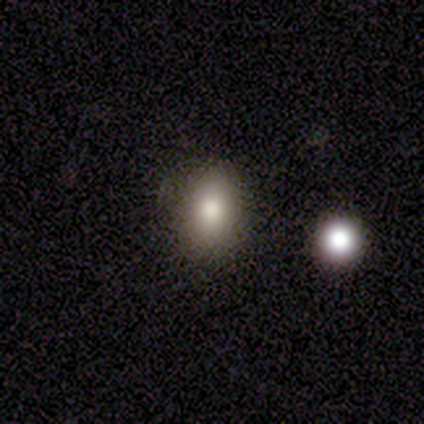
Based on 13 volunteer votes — Smooth or featured? smooth (100%)
How rounded? in between (69%)
Merging? none (85%)